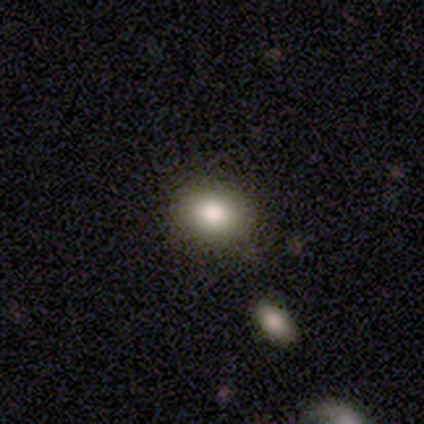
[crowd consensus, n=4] smooth 100%, featured or disk 0%, star or artifact 0%. Down the decision tree: how rounded — in between (75%); merging — none (75%).